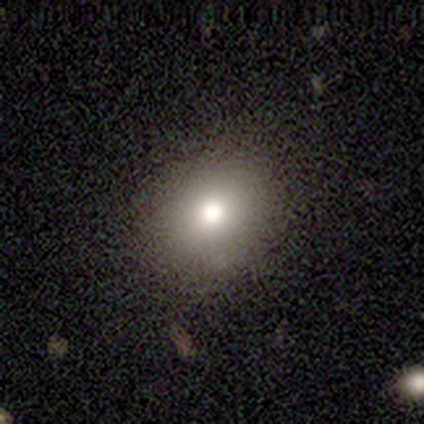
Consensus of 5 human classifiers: This appears to be a smooth galaxy with no disk features (60%) that is round (67%). Merging: none (100%).